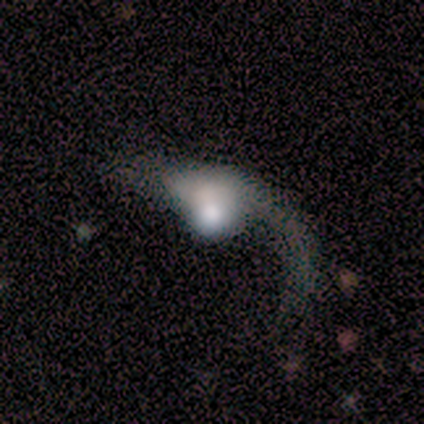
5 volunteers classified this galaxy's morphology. smooth-or-featured: smooth: 60% | featured or disk: 40% | star or artifact: 0%
  how-rounded: in between: 67% | cigar-shaped: 33% | round: 0%
  merging: none: 40% (tied) | major disturbance: 40% (tied) | merger: 20% | minor disturbance: 0%